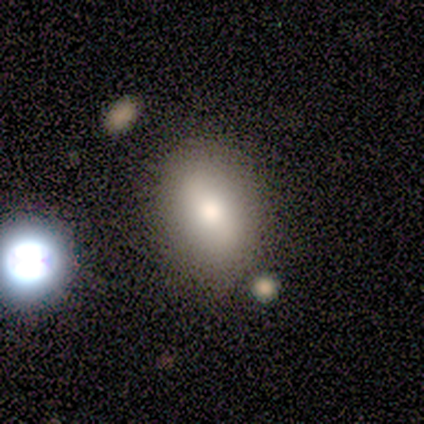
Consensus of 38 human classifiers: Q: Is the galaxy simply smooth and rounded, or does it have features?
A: smooth — 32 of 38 (84%).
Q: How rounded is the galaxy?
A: in between — 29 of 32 (91%).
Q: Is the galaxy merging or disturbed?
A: none — 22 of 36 (61%).